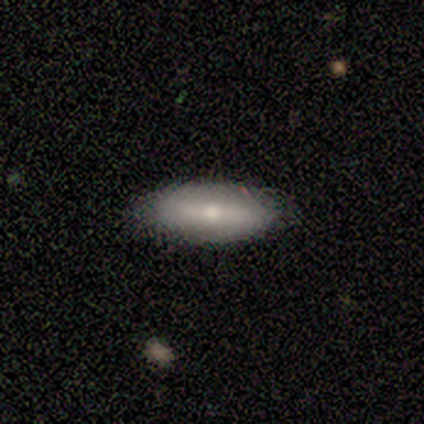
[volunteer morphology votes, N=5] This appears to be a featured or disk galaxy (60%) with a strong bar (33%, tied with weak and no), 2 (100%) tight (33%, tied with medium and loose) spiral arms (100%) and a dominant central bulge (33%, tied with moderate and small). Merging: none (100%).